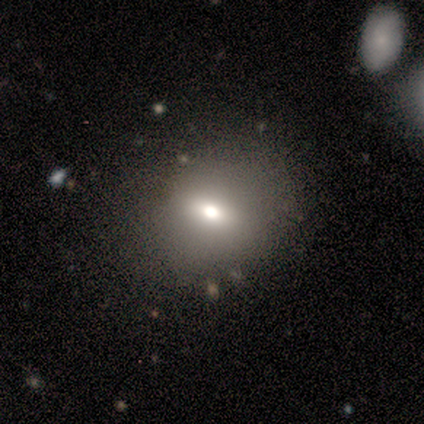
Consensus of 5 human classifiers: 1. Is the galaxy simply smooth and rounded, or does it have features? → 40% smooth (tied), 40% star or artifact (tied), 20% featured or disk.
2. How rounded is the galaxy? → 50% round (tied), 50% in between (tied), 0% cigar-shaped.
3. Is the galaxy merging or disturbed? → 67% none, 33% minor disturbance, 0% major disturbance, 0% merger.